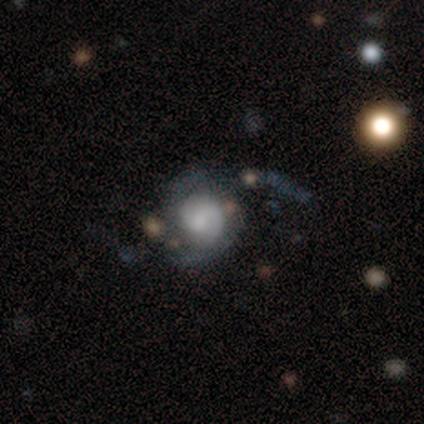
smooth_or_featured: featured or disk (p=1.00)
disk_edge_on: no (p=1.00)
bar: no (p=0.80) [alt: weak p=0.20]
has_spiral_arms: yes (p=0.80) [alt: no p=0.20]
spiral_winding: tight (p=0.50) [tied with: loose p=0.50]
spiral_arm_count: can't tell (p=0.75) [alt: 2 p=0.25]
bulge_size: small (p=0.60) [alt: moderate p=0.20]
merging: none (p=0.40) [tied with: major disturbance p=0.40]